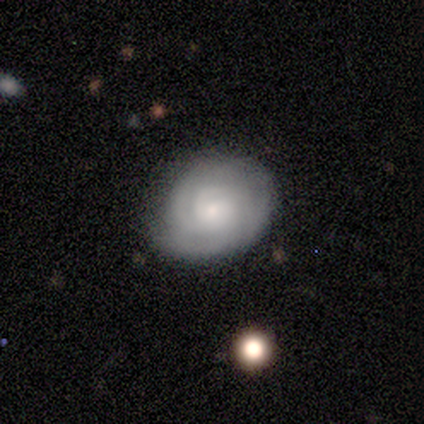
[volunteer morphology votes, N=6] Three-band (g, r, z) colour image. It shows a featured or disk galaxy (83%) with no bar (100%), tight (100%) spiral arms (100%) and a small central bulge (100%). Merging: none (50%).